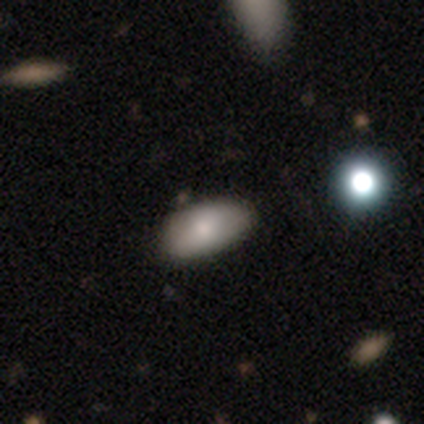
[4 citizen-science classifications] This appears to be a smooth galaxy with no disk features (75%) that is in between round and cigar-shaped (100%). Merging: none (67%).